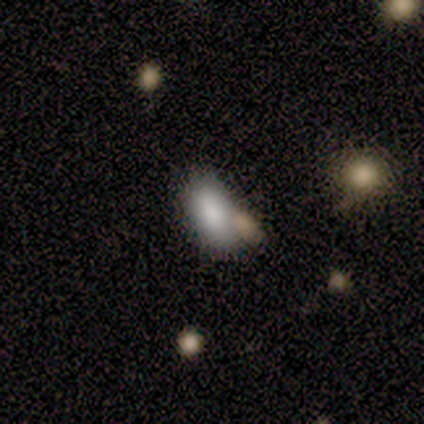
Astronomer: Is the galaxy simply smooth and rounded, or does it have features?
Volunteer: smooth — 86%.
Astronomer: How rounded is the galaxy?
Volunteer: in between — 83%.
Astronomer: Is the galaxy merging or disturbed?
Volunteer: none — 67%.